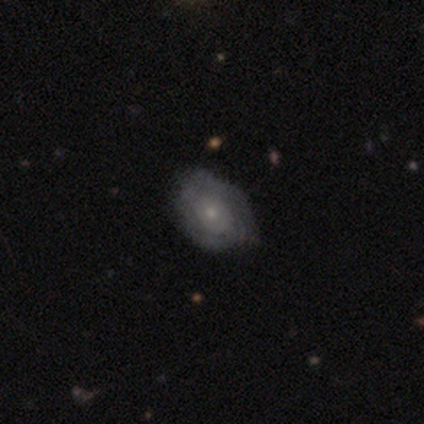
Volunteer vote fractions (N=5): Morphology: type=featured or disk (80%); edge-on=no (100%); bar=no (100%); spiral arms=yes (75%); winding=tight (67%); arm count=can't tell (100%); bulge=moderate (75%); merging=none (75%).